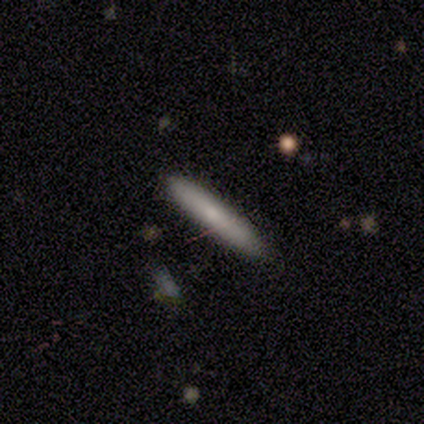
smooth 80%, star or artifact 20%, featured or disk 0%. Down the decision tree: how rounded — cigar-shaped (100%); merging — none (75%).